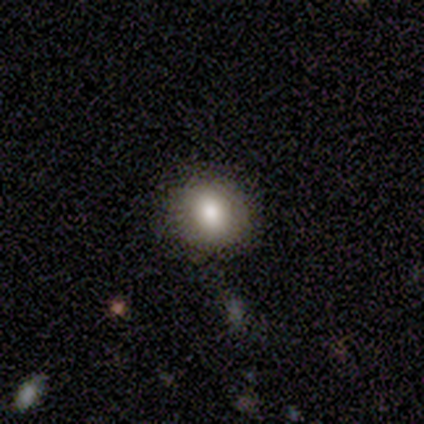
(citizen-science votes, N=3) Smooth or featured? smooth (100%)
How rounded? round (67%)
Merging? none (67%)